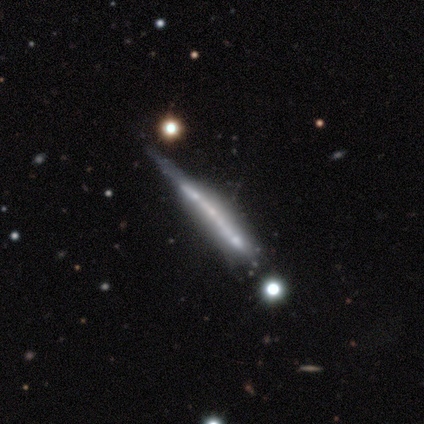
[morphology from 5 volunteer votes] smooth-or-featured: featured or disk: 100% | smooth: 0% | star or artifact: 0%
  disk-edge-on: yes: 100% | no: 0%
    edge-on-bulge: none: 60% | boxy: 40% | rounded: 0%
  merging: minor disturbance: 40% (tied) | major disturbance: 40% (tied) | none: 20% | merger: 0%